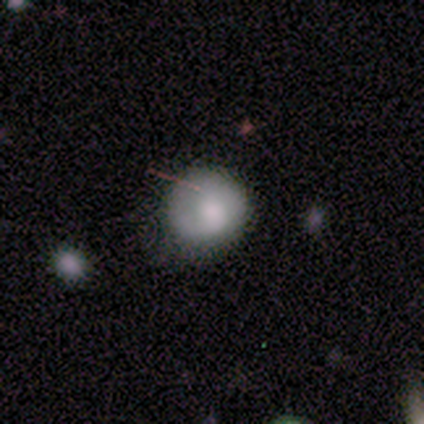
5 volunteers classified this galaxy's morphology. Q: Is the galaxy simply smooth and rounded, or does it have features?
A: smooth — 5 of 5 (100%).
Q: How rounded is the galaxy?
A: round — 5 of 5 (100%).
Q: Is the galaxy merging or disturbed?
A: none — 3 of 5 (60%).